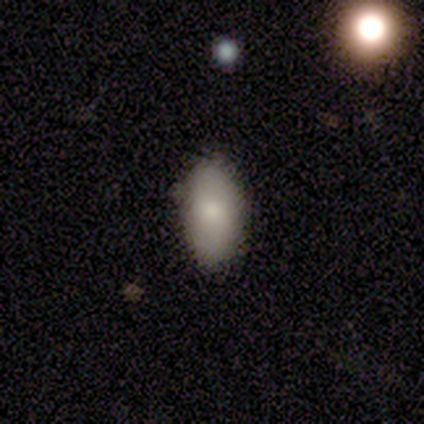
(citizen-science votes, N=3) Smooth or featured?
  - smooth: 100% *
  - featured or disk: 0%
  - star or artifact: 0%
How rounded?
  - in between: 100% *
  - round: 0%
  - cigar-shaped: 0%
Merging?
  - none: 67% *
  - minor disturbance: 33%
  - major disturbance: 0%
  - merger: 0%